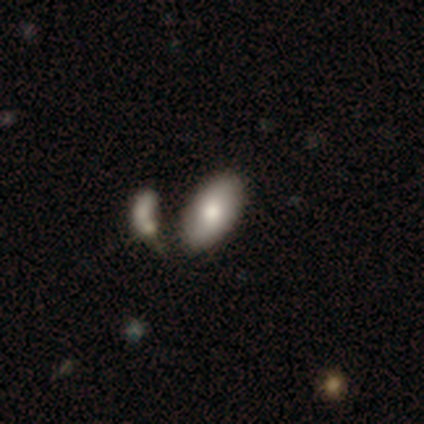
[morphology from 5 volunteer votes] Smooth or featured: smooth — 80% (featured or disk — 20%)
How rounded: in between — 100%
Merging: none — 40% (tied with major disturbance — 40%)